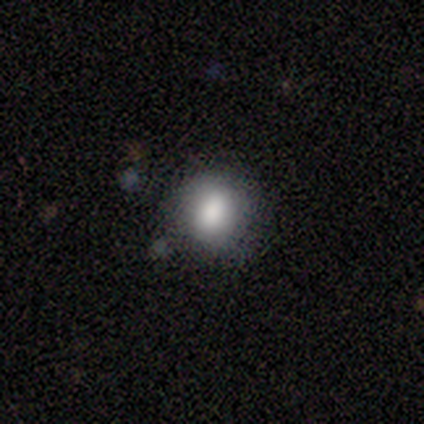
This appears to be a smooth galaxy with no disk features (80%) that is round (100%). Merging: none (100%).